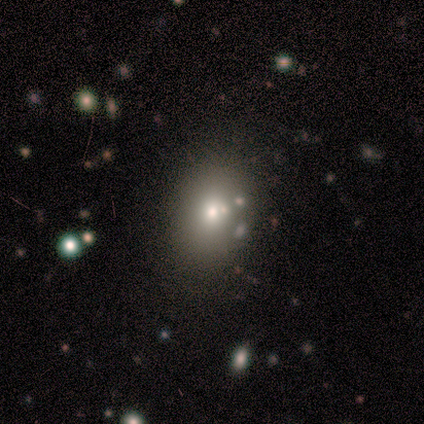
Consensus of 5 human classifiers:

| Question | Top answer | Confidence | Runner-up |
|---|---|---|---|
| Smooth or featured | smooth | 40% | tied: star or artifact (40%) |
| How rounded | round | 50% | tied: in between (50%) |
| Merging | merger | 67% | none (33%) |